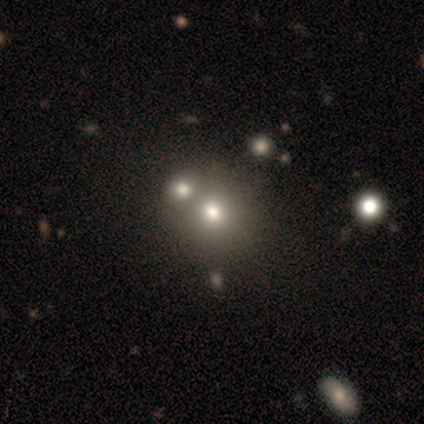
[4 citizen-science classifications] Overall: smooth (50%; featured or disk 25%). How rounded: round (100%). Merging: merger (100%).